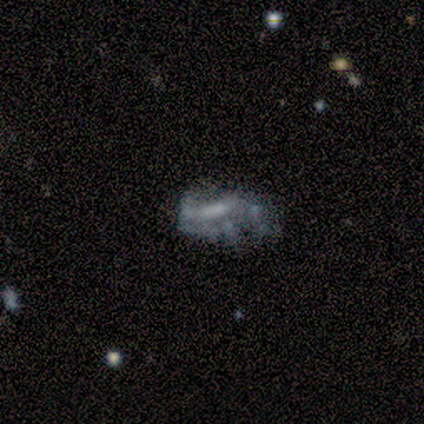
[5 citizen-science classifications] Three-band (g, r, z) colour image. It shows a smooth galaxy with no disk features (60%) that is in between round and cigar-shaped (100%). Merging: major disturbance (60%).